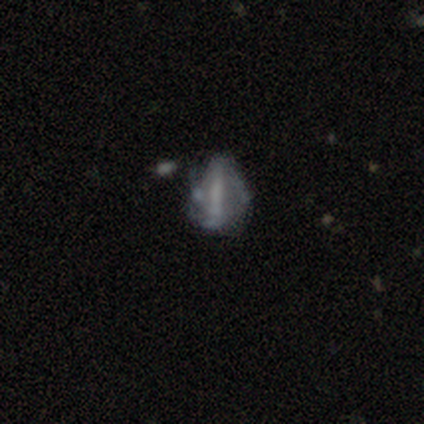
smooth-or-featured: smooth: 40% (tied) | star or artifact: 40% (tied) | featured or disk: 20%
  how-rounded: in between: 100% | round: 0% | cigar-shaped: 0%
  merging: minor disturbance: 67% | none: 33% | major disturbance: 0% | merger: 0%